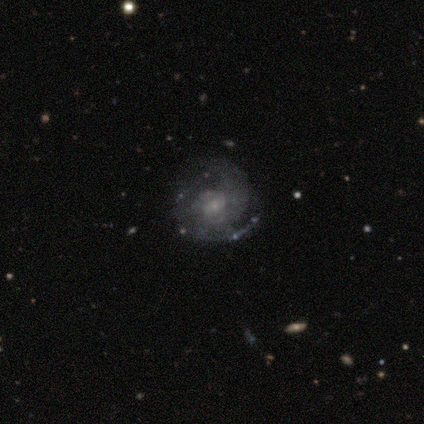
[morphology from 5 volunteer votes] Smooth or featured: featured or disk — 60% (smooth — 20%)
Edge-on disk: no — 100%
Bar: weak — 67% (no — 33%)
Spiral arms: yes — 100%
Spiral winding: tight — 33% (tied with medium — 33%; loose — 33%)
Spiral arm count: 2 — 100%
Bulge size: small — 67% (none — 33%)
Merging: none — 75% (minor disturbance — 25%)